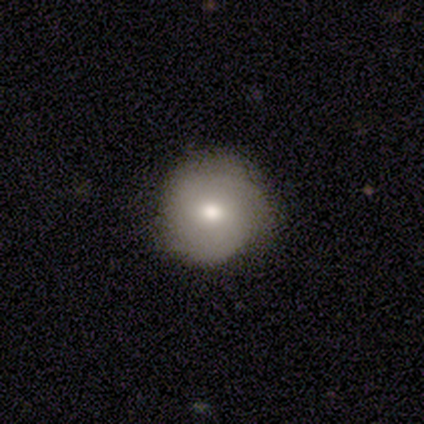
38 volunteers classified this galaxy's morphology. smooth-or-featured: smooth: 61% | featured or disk: 32% | star or artifact: 8%
  how-rounded: round: 100% | in between: 0% | cigar-shaped: 0%
  merging: none: 86% | minor disturbance: 9% | major disturbance: 6% | merger: 0%